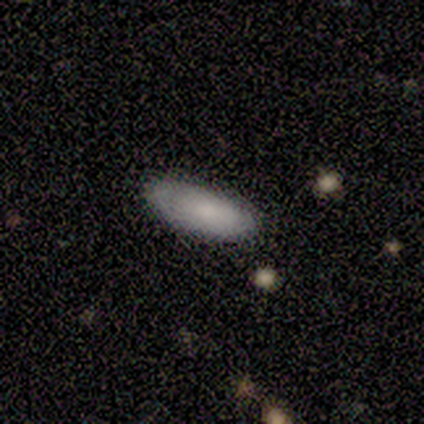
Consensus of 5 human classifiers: Smooth or featured: smooth — 80% (featured or disk — 20%)
How rounded: in between — 75% (cigar-shaped — 25%)
Merging: none — 100%